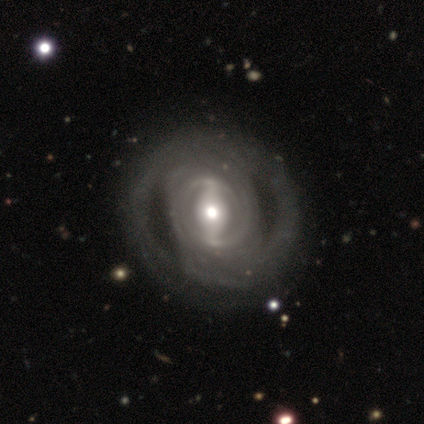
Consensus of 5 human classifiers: A featured or disk galaxy (100%) with a strong bar (60%), tight (75%) spiral arms (80%) and a moderate central bulge (60%).

Vote fractions:
- Smooth or featured? featured or disk: 100% / smooth: 0% / star or artifact: 0%
- Edge-on disk? no: 100% / yes: 0%
- Bar? strong: 60% / weak: 40% / no: 0%
- Spiral arms? yes: 80% / no: 20%
- Spiral winding? tight: 75% / loose: 25% / medium: 0%
- Spiral arm count? can't tell: 100% / 1: 0% / 2: 0% / 3: 0% / 4: 0% / more than 4: 0%
- Bulge size? moderate: 60% / small: 40% / dominant: 0% / large: 0% / none: 0%
- Merging? none: 60% / major disturbance: 20% / merger: 20% / minor disturbance: 0%